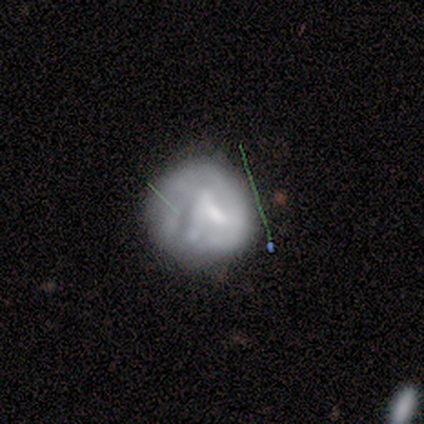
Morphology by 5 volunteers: Smooth or featured: featured or disk — 40% (tied with star or artifact — 40%)
Edge-on disk: no — 100%
Bar: strong — 50% (tied with weak — 50%)
Spiral arms: yes — 50% (tied with no — 50%)
Spiral winding: loose — 100%
Spiral arm count: 3 — 100%
Bulge size: moderate — 50% (tied with none — 50%)
Merging: none — 67% (minor disturbance — 33%)